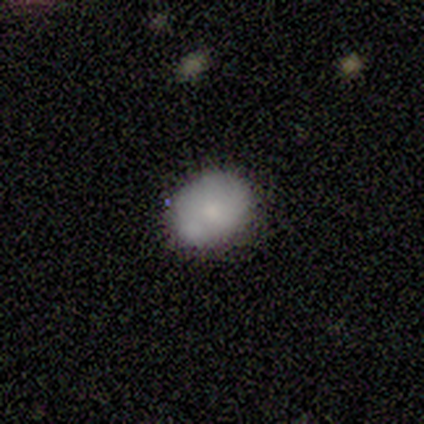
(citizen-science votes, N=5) Q: Smooth or featured?
A: smooth (60%); runner-up: featured or disk (20%)
Q: How rounded?
A: in between (67%); runner-up: round (33%)
Q: Merging?
A: none (50%); tied with: merger (50%)